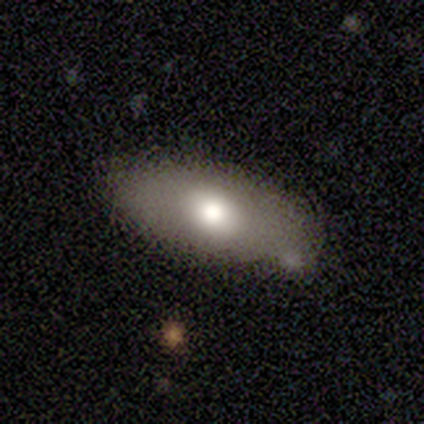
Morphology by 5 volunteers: This is marginally a smooth galaxy (40%, tied with featured or disk). How rounded: clearly in between (100%). Merging: clearly none (100%).